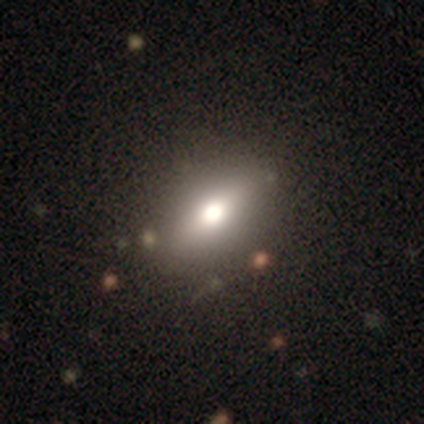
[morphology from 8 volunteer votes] smooth_or_featured: smooth (p=0.75) [alt: star or artifact p=0.25]
how_rounded: in between (p=1.00)
merging: none (p=0.67) [alt: minor disturbance p=0.33]